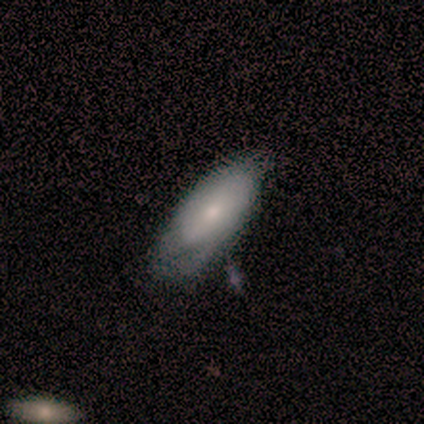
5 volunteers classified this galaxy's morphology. Q: Smooth or featured?
A: featured or disk (80%); runner-up: smooth (20%)
Q: Edge-on disk?
A: no (100%)
Q: Bar?
A: weak (50%); tied with: no (50%)
Q: Spiral arms?
A: yes (75%); runner-up: no (25%)
Q: Spiral winding?
A: tight (100%)
Q: Spiral arm count?
A: 1 (33%); tied with: 2 (33%); can't tell (33%)
Q: Bulge size?
A: small (75%); runner-up: moderate (25%)
Q: Merging?
A: none (40%); tied with: minor disturbance (40%)